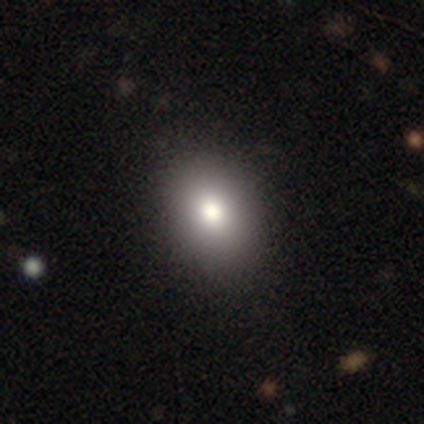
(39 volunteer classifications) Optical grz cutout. It shows a smooth galaxy with no disk features (79%) that is in between round and cigar-shaped (68%). Merging: none (89%).